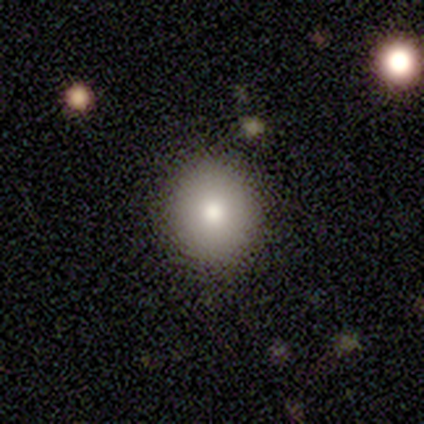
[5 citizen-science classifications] A smooth galaxy with no disk features (80%) that is round (100%).

Vote fractions:
- Smooth or featured? smooth: 80% / featured or disk: 20% / star or artifact: 0%
- How rounded? round: 100% / in between: 0% / cigar-shaped: 0%
- Merging? none: 80% / minor disturbance: 20% / major disturbance: 0% / merger: 0%